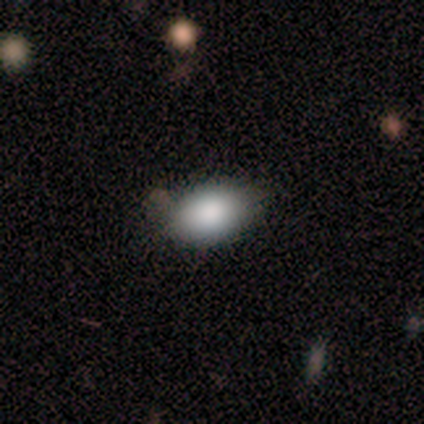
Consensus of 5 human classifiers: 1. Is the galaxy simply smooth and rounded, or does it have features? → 80% smooth, 20% featured or disk, 0% star or artifact.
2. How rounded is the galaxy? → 75% in between, 25% round, 0% cigar-shaped.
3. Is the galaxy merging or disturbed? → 80% none, 20% minor disturbance, 0% major disturbance, 0% merger.